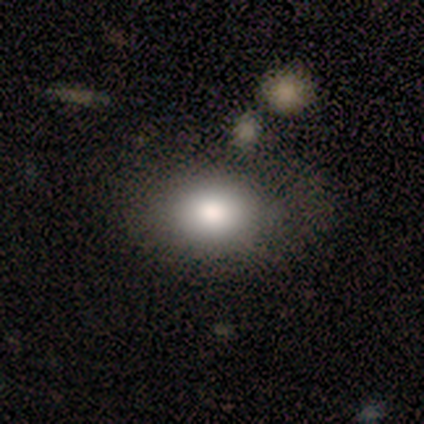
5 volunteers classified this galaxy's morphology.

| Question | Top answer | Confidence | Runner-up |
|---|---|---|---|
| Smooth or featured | smooth | 80% | featured or disk (20%) |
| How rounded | in between | 75% | round (25%) |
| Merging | none | 60% | minor disturbance (20%) |